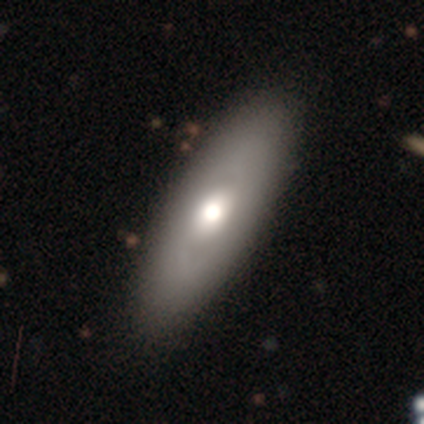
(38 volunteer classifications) Q: Smooth or featured?
A: smooth (50%); runner-up: featured or disk (42%)
Q: How rounded?
A: in between (79%); runner-up: cigar-shaped (21%)
Q: Merging?
A: none (60%); runner-up: minor disturbance (11%)